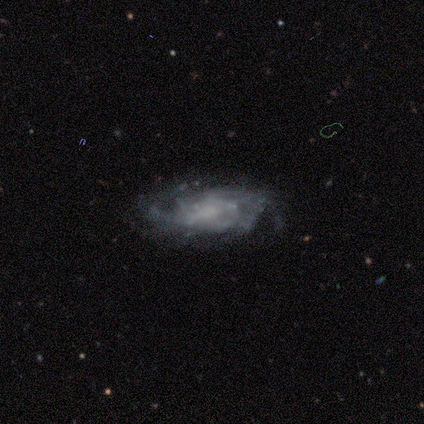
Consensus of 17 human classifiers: smooth-or-featured: featured or disk: 88% | star or artifact: 12% | smooth: 0%
  disk-edge-on: no: 100% | yes: 0%
    bar: weak: 47% (tied) | no: 47% (tied) | strong: 7%
    has-spiral-arms: yes: 100% | no: 0%
      spiral-winding: tight: 67% | medium: 27% | loose: 7%
      spiral-arm-count: can't tell: 60% | 2: 20% | 3: 7% | 4: 7% | more than 4: 7% | 1: 0%
    bulge-size: none: 60% | small: 20% | moderate: 13% | large: 7% | dominant: 0%
  merging: none: 80% | minor disturbance: 13% | major disturbance: 7% | merger: 0%